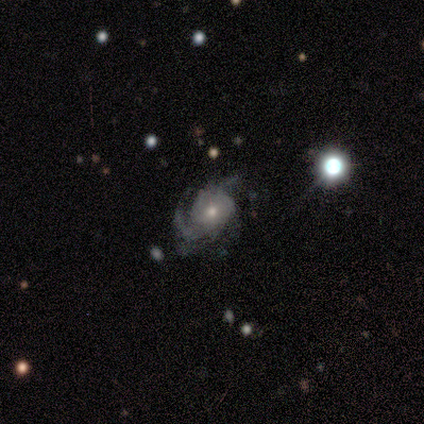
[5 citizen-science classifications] Morphology: type=featured or disk (80%); edge-on=no (100%); bar=no (75%); spiral arms=yes (100%); winding=tight (50%, tied with medium); arm count=3 (50%, tied with can't tell); bulge=small (75%); merging=none (80%).